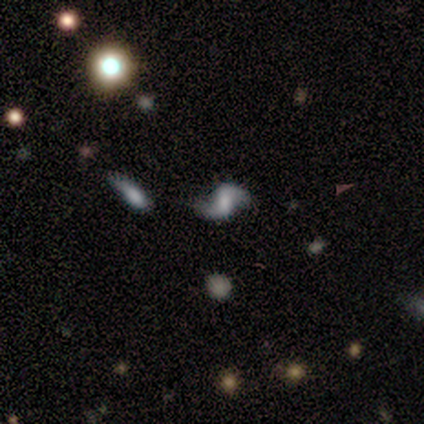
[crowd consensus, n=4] Smooth or featured? featured or disk (100%)
Edge-on disk? no (100%)
Bar? strong (50%)
Spiral arms? yes (100%)
Spiral winding? loose (100%)
Spiral arm count? 2 (100%)
Bulge size? none (50%)
Merging? none (100%)